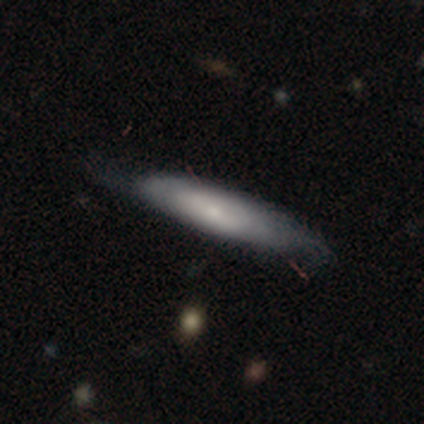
Smooth or featured: featured or disk — 54% (smooth — 44%)
Edge-on disk: no — 57% (yes — 43%)
Bar: no — 58% (weak — 25%)
Spiral arms: no — 67% (yes — 33%)
Bulge size: small — 58% (moderate — 25%)
Merging: none — 45% (minor disturbance — 16%)